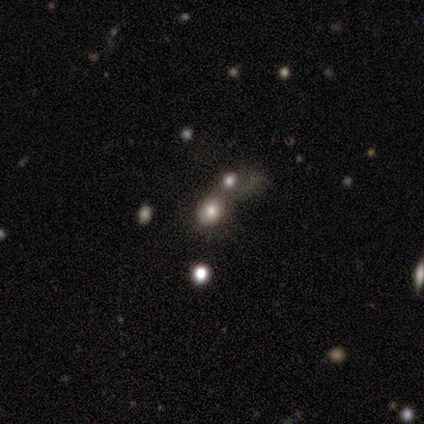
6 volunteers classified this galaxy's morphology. A smooth galaxy with no disk features (50%) that is in between round and cigar-shaped (67%). Merging: merger (75%).